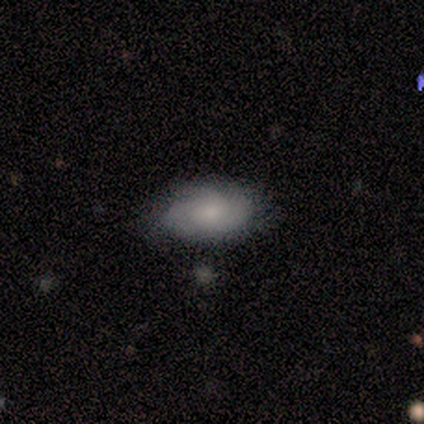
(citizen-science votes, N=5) Smooth or featured: smooth — 40% (tied with featured or disk — 40%)
How rounded: in between — 100%
Merging: none — 75% (major disturbance — 25%)